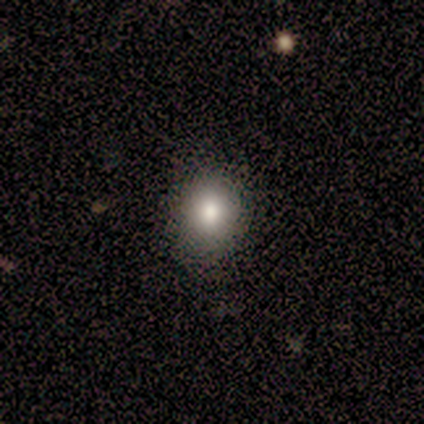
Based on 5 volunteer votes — Smooth or featured?
  - smooth: 60% *
  - star or artifact: 40%
  - featured or disk: 0%
How rounded?
  - round: 67% *
  - in between: 33%
  - cigar-shaped: 0%
Merging?
  - none: 67% *
  - minor disturbance: 33%
  - major disturbance: 0%
  - merger: 0%